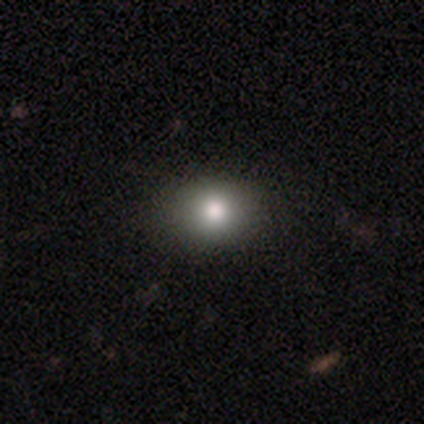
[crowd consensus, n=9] smooth-or-featured: smooth: 56% | featured or disk: 22% | star or artifact: 22%
  how-rounded: round: 80% | in between: 20% | cigar-shaped: 0%
  merging: none: 86% | major disturbance: 14% | minor disturbance: 0% | merger: 0%